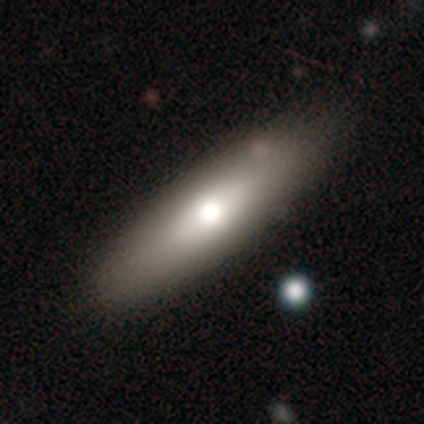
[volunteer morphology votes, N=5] Smooth or featured: smooth — 80% (featured or disk — 20%)
How rounded: cigar-shaped — 50% (round — 25%)
Merging: none — 80% (major disturbance — 20%)